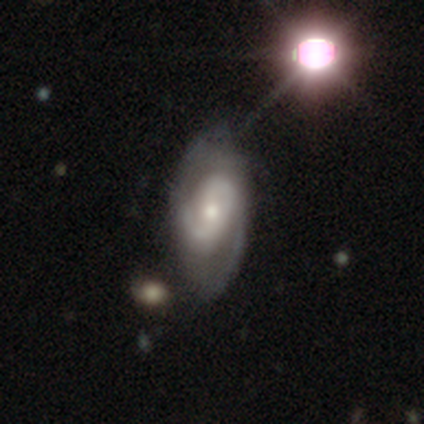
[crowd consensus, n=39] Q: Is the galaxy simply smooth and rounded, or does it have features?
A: featured or disk — 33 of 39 (85%).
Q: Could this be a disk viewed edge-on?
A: no — 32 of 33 (97%).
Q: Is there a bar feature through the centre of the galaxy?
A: no — 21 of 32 (66%).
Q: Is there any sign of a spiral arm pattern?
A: yes — 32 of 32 (100%).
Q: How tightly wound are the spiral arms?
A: medium — 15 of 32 (47%).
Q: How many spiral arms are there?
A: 2 — 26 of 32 (81%).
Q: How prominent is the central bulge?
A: moderate — 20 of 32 (62%).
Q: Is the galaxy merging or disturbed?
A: none — 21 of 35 (60%).